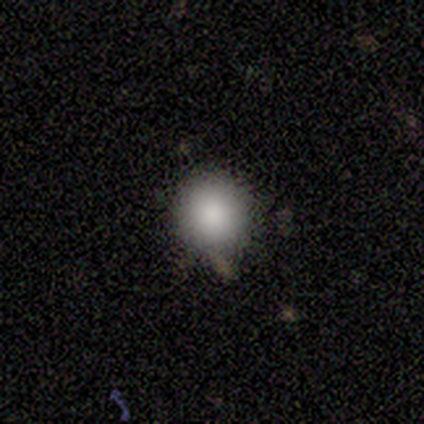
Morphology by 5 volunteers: This is likely a smooth galaxy (60%). How rounded: clearly round (100%). Merging: likely none (75%).